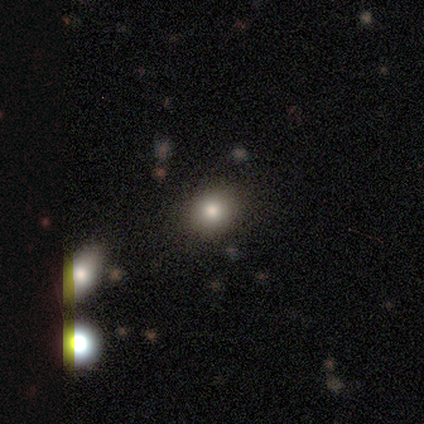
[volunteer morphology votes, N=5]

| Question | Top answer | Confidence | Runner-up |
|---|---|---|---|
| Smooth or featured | smooth | 60% | featured or disk (20%) |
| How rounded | round | 67% | in between (33%) |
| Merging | none | 75% | minor disturbance (25%) |